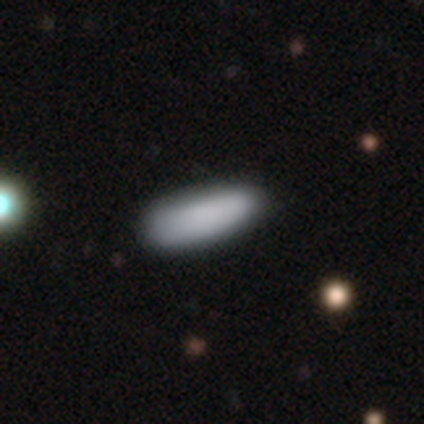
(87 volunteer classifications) Q: Smooth or featured?
A: smooth (91%); runner-up: star or artifact (7%)
Q: How rounded?
A: in between (52%); runner-up: cigar-shaped (48%)
Q: Merging?
A: none (84%); runner-up: minor disturbance (15%)